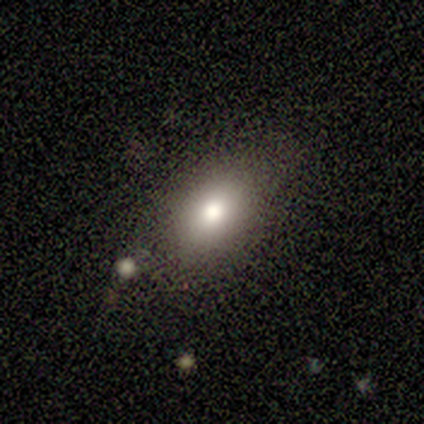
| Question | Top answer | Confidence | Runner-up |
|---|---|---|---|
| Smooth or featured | smooth | 62% | star or artifact (25%) |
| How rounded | in between | 100% | — |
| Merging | none | 67% | minor disturbance (17%) |